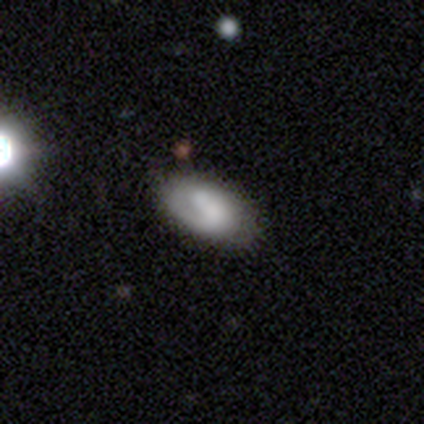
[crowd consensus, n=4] This appears to be a smooth galaxy with no disk features (50%, tied with featured or disk) that is in between round and cigar-shaped (100%). Merging: none (75%).